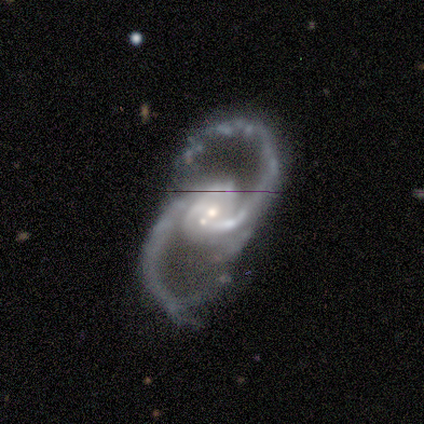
Overall: featured or disk (100%). Edge-on disk: no (100%). Bar: no (80%). Spiral arms: yes (100%). Spiral arm count: 2 (100%). Spiral winding: medium (60%; loose 40%). Bulge size: small (60%; moderate 40%). Merging: merger (60%; none 20%).